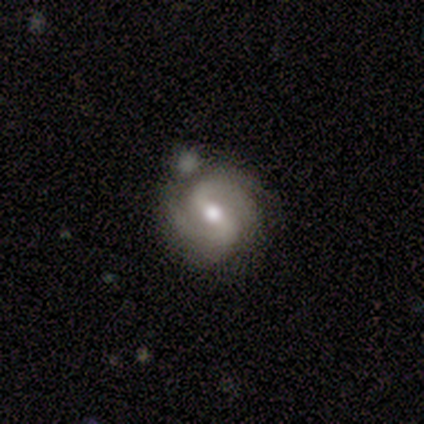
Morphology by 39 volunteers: smooth-or-featured: featured or disk: 82% | star or artifact: 13% | smooth: 5%
  disk-edge-on: no: 94% | yes: 6%
    bar: strong: 47% | weak: 40% | no: 13%
    has-spiral-arms: yes: 93% | no: 7%
      spiral-winding: medium: 54% | loose: 25% | tight: 21%
      spiral-arm-count: 2: 86% | 3: 7% | 1: 4% | 4: 4% | more than 4: 0% | can't tell: 0%
    bulge-size: moderate: 77% | small: 17% | large: 7% | dominant: 0% | none: 0%
  merging: none: 68% | minor disturbance: 15% | merger: 12% | major disturbance: 6%